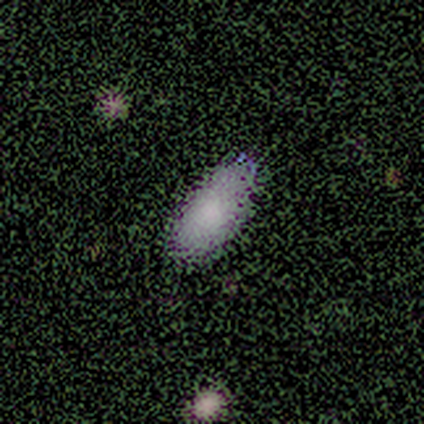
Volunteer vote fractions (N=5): This appears to be a smooth galaxy with no disk features (80%) that is in between round and cigar-shaped (100%). Merging: none (100%).